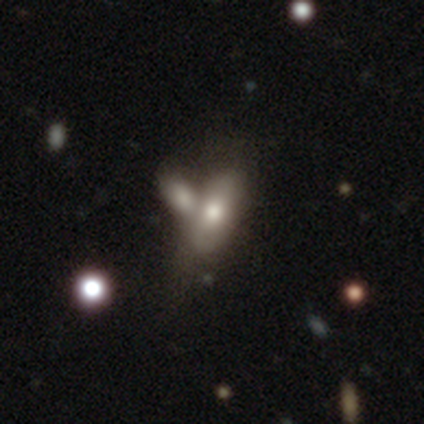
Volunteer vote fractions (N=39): Morphology: type=smooth (67%); roundness=in between (65%); merging=merger (74%).